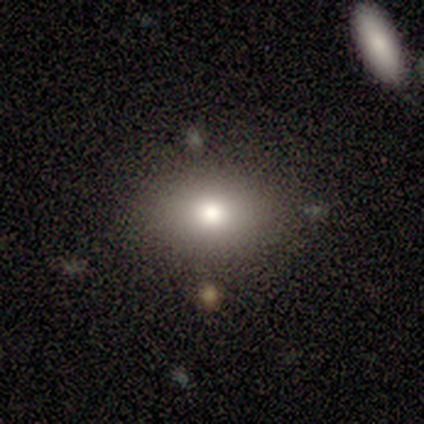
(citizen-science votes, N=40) This is likely a smooth galaxy (78%). How rounded: likely in between (71%). Merging: clearly none (82%).